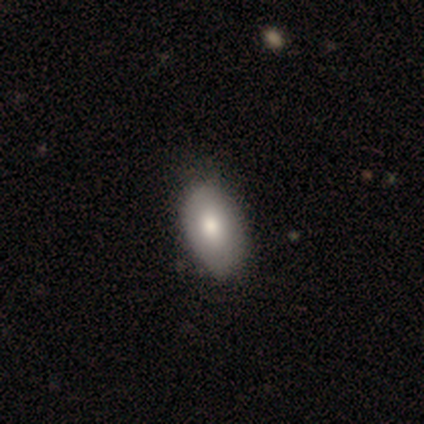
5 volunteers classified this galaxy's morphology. smooth-or-featured: smooth: 100% | featured or disk: 0% | star or artifact: 0%
  how-rounded: in between: 100% | round: 0% | cigar-shaped: 0%
  merging: none: 80% | minor disturbance: 20% | major disturbance: 0% | merger: 0%